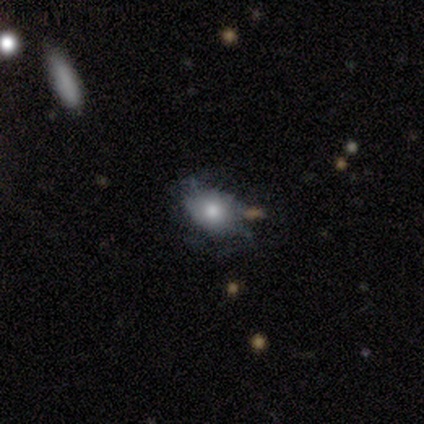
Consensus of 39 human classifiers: Morphology: type=smooth (44%); roundness=in between (82%); merging=none (50%).